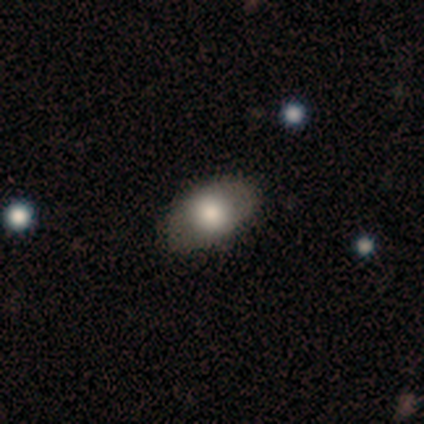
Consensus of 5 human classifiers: Q: Smooth or featured?
A: smooth (100%)
Q: How rounded?
A: in between (80%); runner-up: round (20%)
Q: Merging?
A: none (60%); runner-up: minor disturbance (20%)